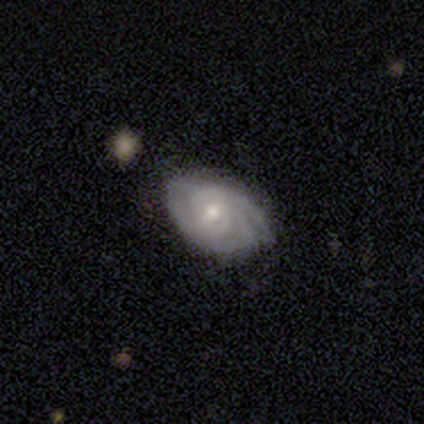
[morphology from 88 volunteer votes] type=featured or disk (85%); edge-on=no (100%); bar=no (59%); spiral arms=yes (99%); winding=tight (73%); arm count=3 (59%); bulge=moderate (55%); merging=none (69%).